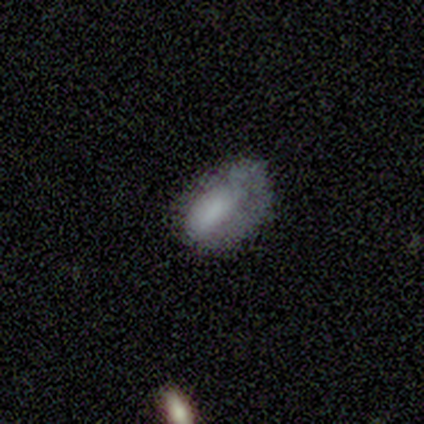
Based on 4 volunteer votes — Morphology: type=star or artifact (50%).